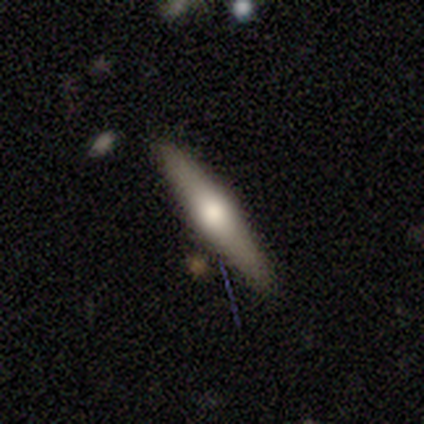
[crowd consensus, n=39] This is likely a featured or disk galaxy (72%). It is clearly viewed edge-on (96%). Edge-on bulge: clearly rounded (93%). Merging: clearly none (82%).